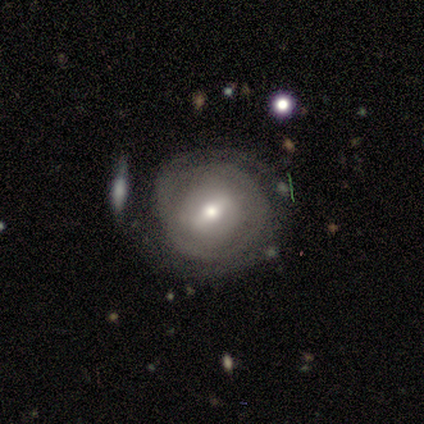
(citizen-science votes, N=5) smooth_or_featured: featured or disk (p=0.80) [alt: smooth p=0.20]
disk_edge_on: no (p=0.75) [alt: yes p=0.25]
bar: no (p=0.67) [alt: weak p=0.33]
has_spiral_arms: yes (p=1.00)
spiral_winding: tight (p=0.67) [alt: medium p=0.33]
spiral_arm_count: can't tell (p=0.67) [alt: 3 p=0.33]
bulge_size: moderate (p=0.67) [alt: small p=0.33]
merging: none (p=0.40) [tied with: major disturbance p=0.40]